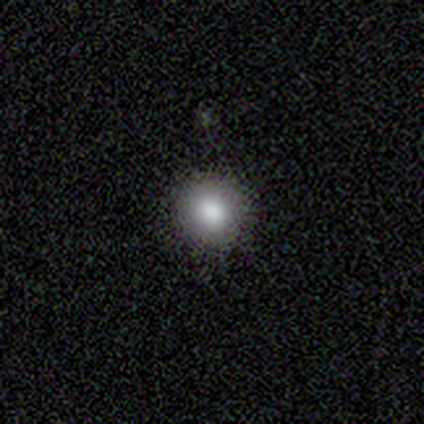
smooth-or-featured: smooth: 82% | star or artifact: 16% | featured or disk: 3%
  how-rounded: round: 94% | in between: 6% | cigar-shaped: 0%
  merging: none: 94% | minor disturbance: 6% | major disturbance: 0% | merger: 0%